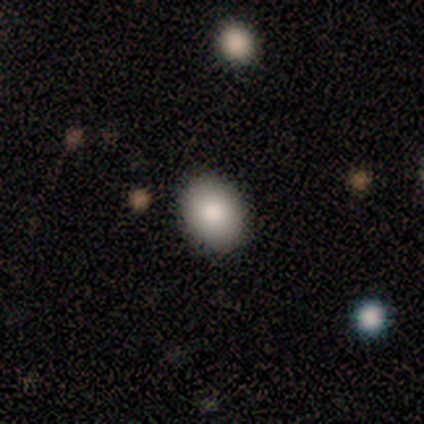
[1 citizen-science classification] smooth_or_featured: smooth (p=1.00)
how_rounded: round (p=1.00)
merging: none (p=1.00)